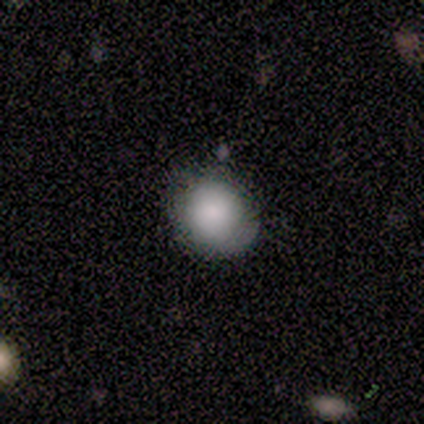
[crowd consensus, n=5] smooth 60%, featured or disk 20%, star or artifact 20%. Down the decision tree: how rounded — round (100%); merging — none (75%).